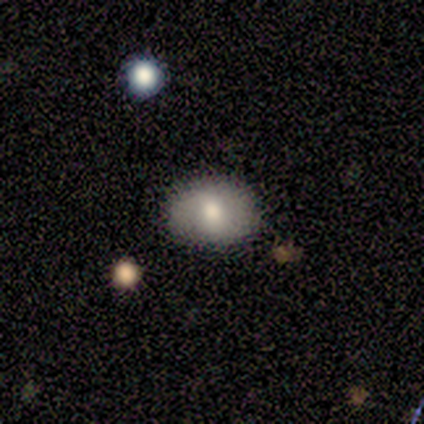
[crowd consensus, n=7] Smooth or featured?
  - smooth: 57% *
  - featured or disk: 29%
  - star or artifact: 14%
How rounded?
  - in between: 100% *
  - round: 0%
  - cigar-shaped: 0%
Merging?
  - none: 100% *
  - minor disturbance: 0%
  - major disturbance: 0%
  - merger: 0%